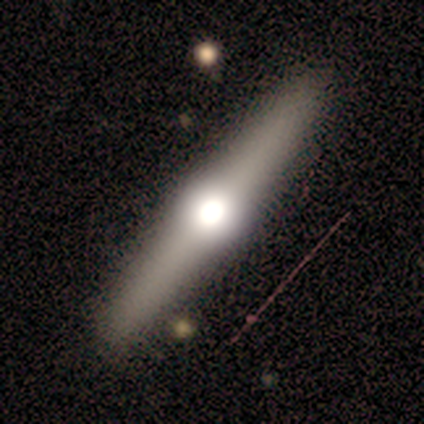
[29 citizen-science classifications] smooth_or_featured: featured or disk (p=0.66) [alt: smooth p=0.21]
disk_edge_on: yes (p=0.95) [alt: no p=0.05]
edge_on_bulge: rounded (p=1.00)
merging: none (p=0.76) [alt: minor disturbance p=0.12]